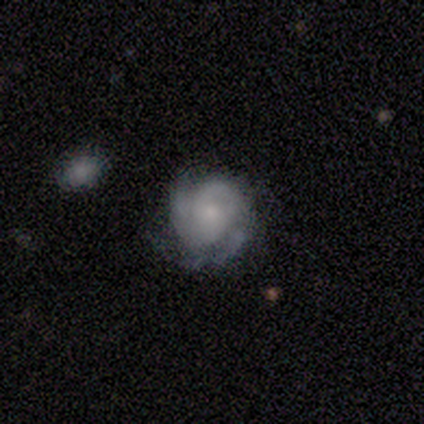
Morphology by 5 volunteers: Smooth or featured?
  - featured or disk: 60% *
  - smooth: 20%
  - star or artifact: 20%
Edge-on disk?
  - no: 100% *
  - yes: 0%
Bar?
  - strong: 33% * (tied)
  - weak: 33% * (tied)
  - no: 33% * (tied)
Spiral arms?
  - yes: 100% *
  - no: 0%
Spiral winding?
  - medium: 67% *
  - tight: 33%
  - loose: 0%
Spiral arm count?
  - 3: 67% *
  - can't tell: 33%
  - 1: 0%
  - 2: 0%
  - 4: 0%
  - more than 4: 0%
Bulge size?
  - small: 100% *
  - dominant: 0%
  - large: 0%
  - moderate: 0%
  - none: 0%
Merging?
  - none: 25% * (tied)
  - minor disturbance: 25% * (tied)
  - major disturbance: 25% * (tied)
  - merger: 25% * (tied)